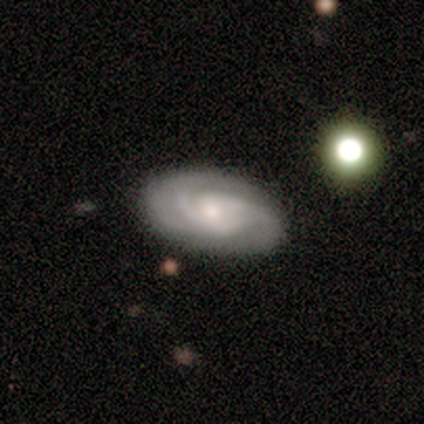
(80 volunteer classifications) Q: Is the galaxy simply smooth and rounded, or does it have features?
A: featured or disk — 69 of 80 (86%).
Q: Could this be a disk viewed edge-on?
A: no — 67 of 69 (97%).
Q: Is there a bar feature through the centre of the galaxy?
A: no — 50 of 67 (75%).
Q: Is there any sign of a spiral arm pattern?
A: yes — 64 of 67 (96%).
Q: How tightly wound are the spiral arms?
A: tight — 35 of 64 (55%).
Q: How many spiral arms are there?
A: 3 — 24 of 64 (38%).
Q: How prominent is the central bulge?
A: small — 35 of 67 (52%).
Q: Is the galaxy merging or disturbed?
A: none — 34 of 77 (44%).